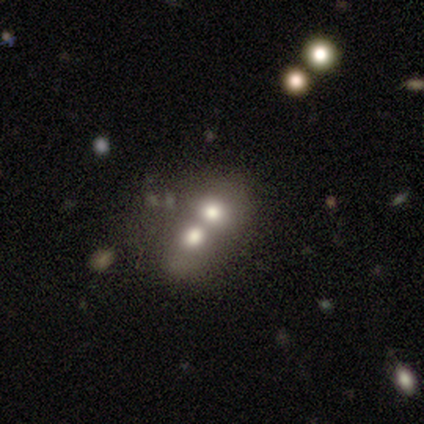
This appears to be a smooth galaxy with no disk features (54%) that is round (70%). Merging: merger (83%).